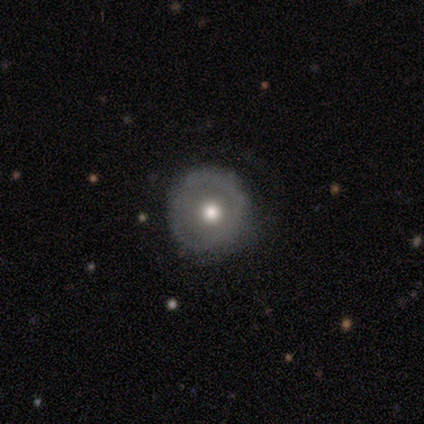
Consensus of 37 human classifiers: Q: Smooth or featured?
A: featured or disk (57%); runner-up: smooth (32%)
Q: Edge-on disk?
A: no (100%)
Q: Bar?
A: no (86%); runner-up: weak (14%)
Q: Spiral arms?
A: no (81%); runner-up: yes (19%)
Q: Bulge size?
A: moderate (76%); runner-up: small (14%)
Q: Merging?
A: none (64%); runner-up: minor disturbance (27%)